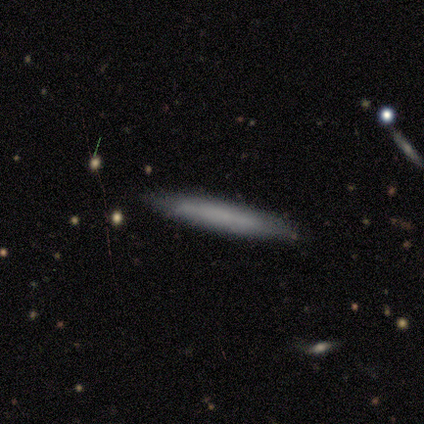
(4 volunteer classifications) This appears to be a smooth galaxy with no disk features (100%) that is cigar-shaped (100%). Merging: none (50%, tied with major disturbance).